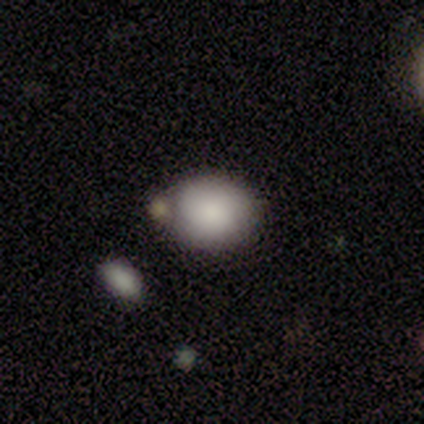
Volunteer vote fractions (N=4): smooth_or_featured: smooth (p=1.00)
how_rounded: round (p=0.75) [alt: in between p=0.25]
merging: none (p=0.50) [alt: minor disturbance p=0.25]